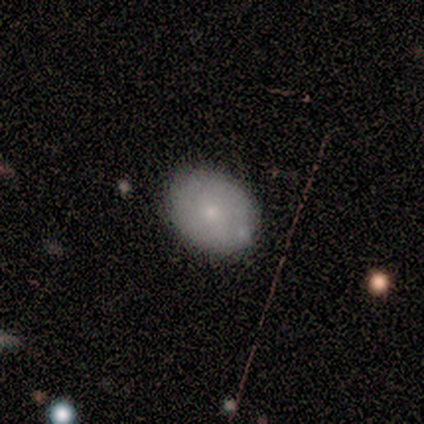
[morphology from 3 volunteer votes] Consensus on every question: smooth or featured — smooth (100%); how rounded — in between (100%); merging — none (100%).